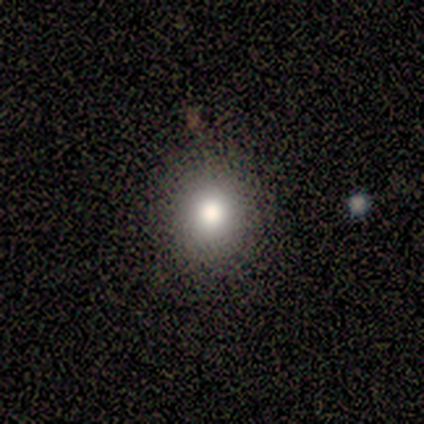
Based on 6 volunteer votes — Overall: smooth (33%, tied with featured or disk and star or artifact). How rounded: round (50%, tied with in between). Merging: none (75%).